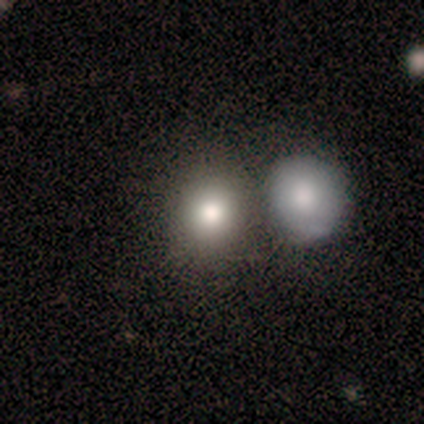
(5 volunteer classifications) Smooth or featured? smooth (60%)
How rounded? in between (67%)
Merging? minor disturbance (50%)